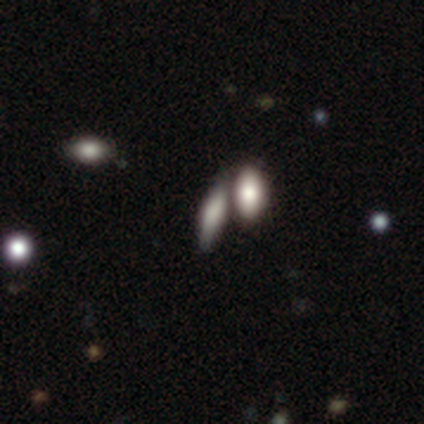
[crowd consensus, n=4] A smooth galaxy with no disk features (75%) that is in between round and cigar-shaped (67%).

Vote fractions:
- Smooth or featured? smooth: 75% / featured or disk: 25% / star or artifact: 0%
- How rounded? in between: 67% / cigar-shaped: 33% / round: 0%
- Merging? merger: 50% / none: 25% / major disturbance: 25% / minor disturbance: 0%